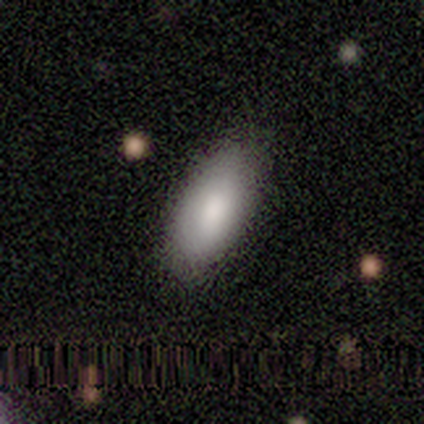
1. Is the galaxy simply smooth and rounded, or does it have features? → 100% smooth, 0% featured or disk, 0% star or artifact.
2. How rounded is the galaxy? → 100% in between, 0% round, 0% cigar-shaped.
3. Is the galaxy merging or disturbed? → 100% none, 0% minor disturbance, 0% major disturbance, 0% merger.